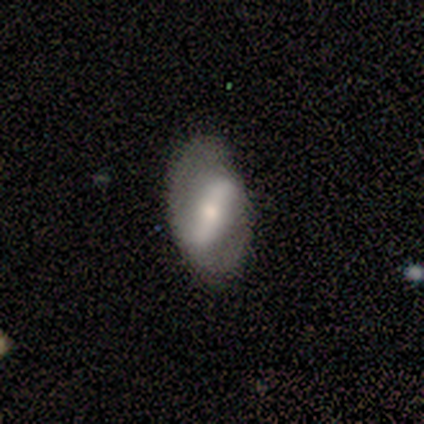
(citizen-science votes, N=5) Volunteers were most divided on "bar" (2-way tie): strong: 50%, weak: 50%, no: 0%; "bulge size" (2-way tie): moderate: 50%, small: 50%, dominant: 0%, large: 0%, none: 0%. More confident: edge-on disk — no (100%); spiral arms — yes (100%); spiral arm count — 2 (100%); smooth or featured — featured or disk (80%); merging — none (80%); spiral winding — tight (50%).